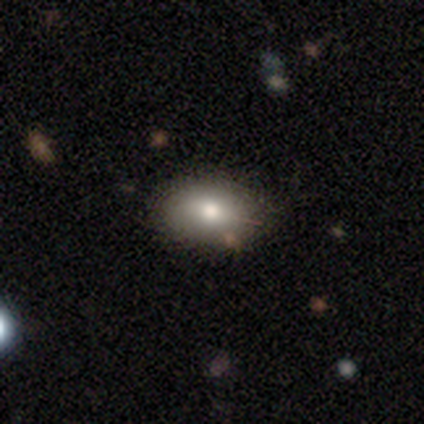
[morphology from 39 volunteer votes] smooth 92%, featured or disk 5%, star or artifact 3%. Down the decision tree: how rounded — in between (83%); merging — none (84%).